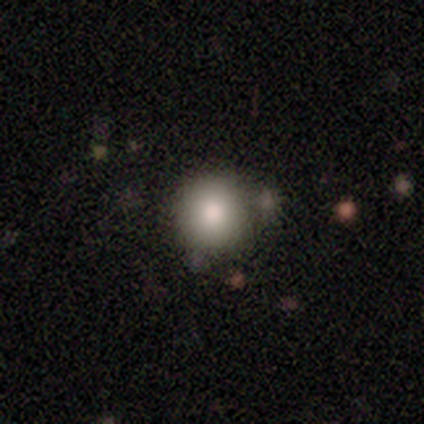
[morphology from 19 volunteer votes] A smooth galaxy with no disk features (100%) that is round (100%).

Vote fractions:
- Smooth or featured? smooth: 100% / featured or disk: 0% / star or artifact: 0%
- How rounded? round: 100% / in between: 0% / cigar-shaped: 0%
- Merging? none: 68% / minor disturbance: 16% / merger: 16% / major disturbance: 0%